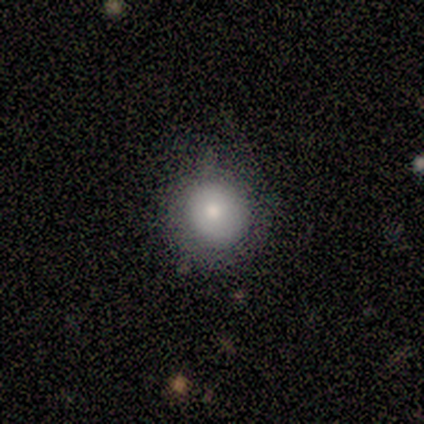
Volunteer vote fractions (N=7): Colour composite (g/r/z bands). It shows a smooth galaxy with no disk features (86%) that is round (100%). Merging: minor disturbance (57%).